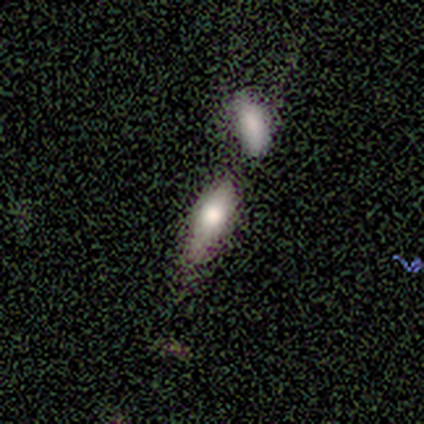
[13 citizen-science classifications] smooth-or-featured: smooth: 77% | featured or disk: 15% | star or artifact: 8%
  how-rounded: in between: 70% | cigar-shaped: 30% | round: 0%
  merging: none: 33% | minor disturbance: 25% | merger: 25% | major disturbance: 17%